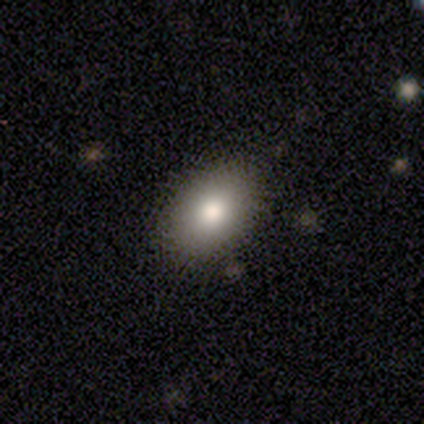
Smooth or featured? 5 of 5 (100%) said smooth. How rounded? 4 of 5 (80%) said in between. Merging? 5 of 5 (100%) said none.